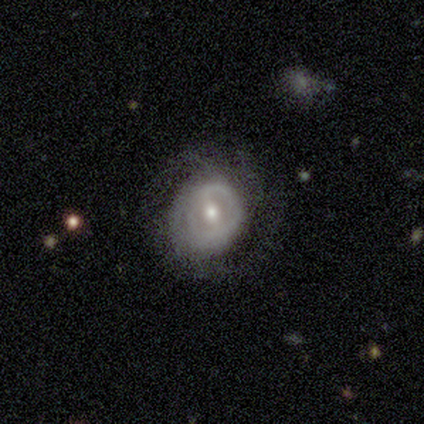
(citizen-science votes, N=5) Smooth or featured?
  - featured or disk: 100% *
  - smooth: 0%
  - star or artifact: 0%
Edge-on disk?
  - no: 100% *
  - yes: 0%
Bar?
  - strong: 40% * (tied)
  - no: 40% * (tied)
  - weak: 20%
Spiral arms?
  - yes: 80% *
  - no: 20%
Spiral winding?
  - tight: 75% *
  - medium: 25%
  - loose: 0%
Spiral arm count?
  - can't tell: 75% *
  - 2: 25%
  - 1: 0%
  - 3: 0%
  - 4: 0%
  - more than 4: 0%
Bulge size?
  - moderate: 40% * (tied)
  - small: 40% * (tied)
  - large: 20%
  - dominant: 0%
  - none: 0%
Merging?
  - none: 100% *
  - minor disturbance: 0%
  - major disturbance: 0%
  - merger: 0%